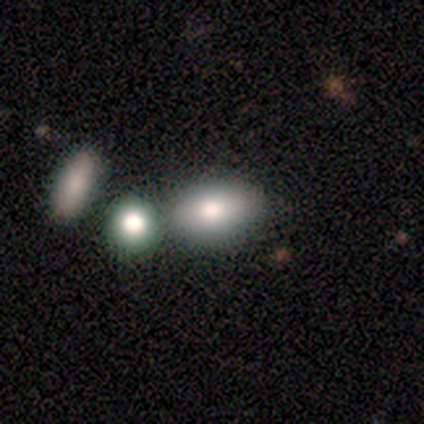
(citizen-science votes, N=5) This is clearly a smooth galaxy (100%). How rounded: clearly in between (100%). Merging: likely none (60%).